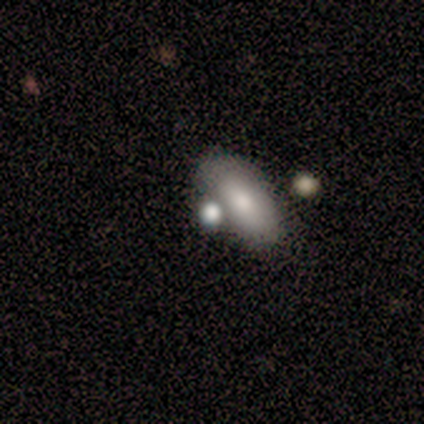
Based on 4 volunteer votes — Morphology: type=smooth (50%, tied with star or artifact); roundness=round (100%); merging=merger (100%).